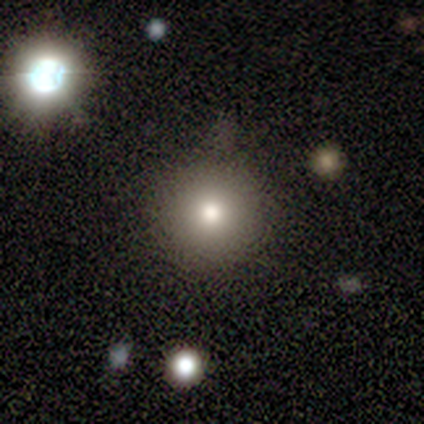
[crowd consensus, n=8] smooth_or_featured: smooth (p=0.62) [alt: featured or disk p=0.38]
how_rounded: round (p=1.00)
merging: none (p=0.75) [alt: minor disturbance p=0.25]